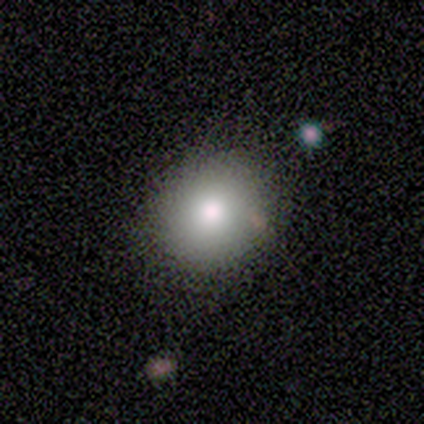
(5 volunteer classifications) Volunteers were most divided on "smooth or featured": smooth: 80%, star or artifact: 20%, featured or disk: 0%. More confident: how rounded — round (100%); merging — none (100%).